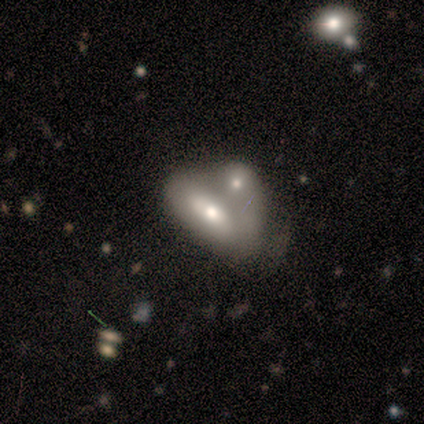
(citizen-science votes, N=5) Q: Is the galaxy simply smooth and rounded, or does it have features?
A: smooth — 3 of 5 (60%).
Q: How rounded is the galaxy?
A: in between — 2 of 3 (67%).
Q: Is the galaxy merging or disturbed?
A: merger — 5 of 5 (100%).